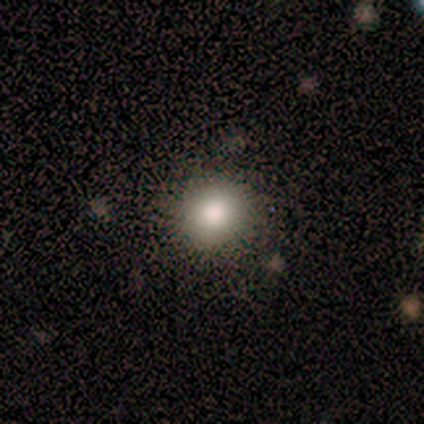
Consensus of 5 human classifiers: Volunteers were most divided on "smooth or featured": smooth: 60%, featured or disk: 20%, star or artifact: 20%. More confident: how rounded — round (100%); merging — none (100%).